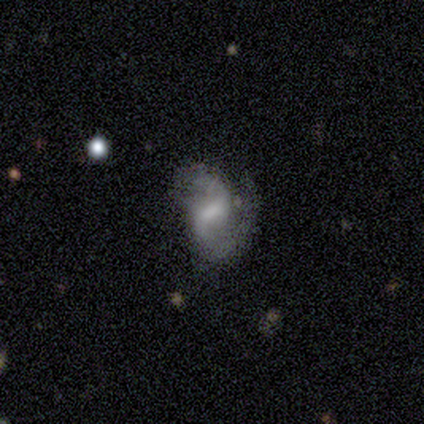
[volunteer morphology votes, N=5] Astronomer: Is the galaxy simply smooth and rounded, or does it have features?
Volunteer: featured or disk — 100%.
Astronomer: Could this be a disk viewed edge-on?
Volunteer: no — 100%.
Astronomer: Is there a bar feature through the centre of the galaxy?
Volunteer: weak — 60%.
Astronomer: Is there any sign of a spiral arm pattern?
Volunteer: yes — 100%.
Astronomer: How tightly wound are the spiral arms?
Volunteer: loose — 60% (runner-up: medium, 40%).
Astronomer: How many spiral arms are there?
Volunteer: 2 — 100%.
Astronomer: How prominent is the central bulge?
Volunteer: moderate — 40%, tied with none at 40%.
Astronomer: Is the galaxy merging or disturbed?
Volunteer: minor disturbance — 40%, tied with major disturbance at 40%.